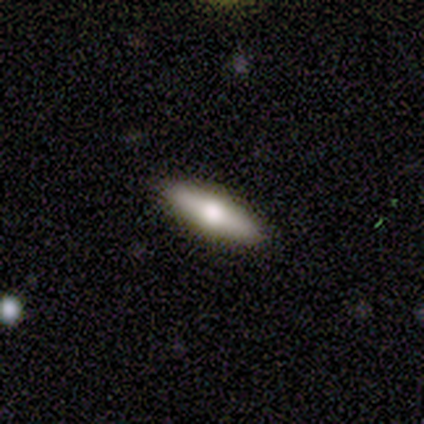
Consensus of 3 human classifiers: Volunteers were most divided on "smooth or featured": smooth: 67%, star or artifact: 33%, featured or disk: 0%. More confident: how rounded — cigar-shaped (100%); merging — none (100%).